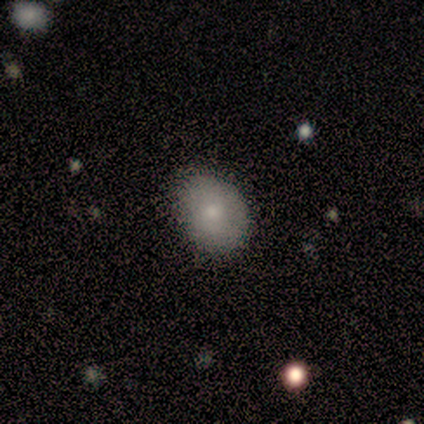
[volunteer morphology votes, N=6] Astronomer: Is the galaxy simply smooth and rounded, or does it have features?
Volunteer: smooth — 83%.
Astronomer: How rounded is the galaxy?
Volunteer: round — 60% (runner-up: in between, 40%).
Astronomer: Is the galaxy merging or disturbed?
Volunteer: none — 83%.